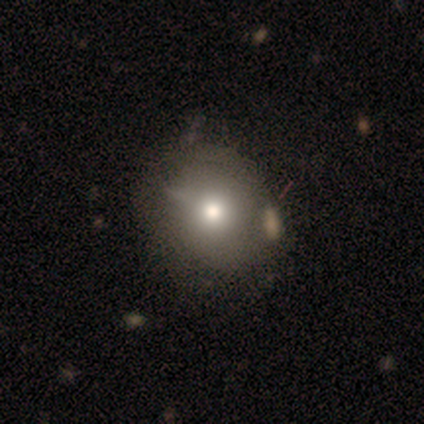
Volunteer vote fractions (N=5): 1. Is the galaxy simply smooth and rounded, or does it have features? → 60% star or artifact, 20% smooth, 20% featured or disk.